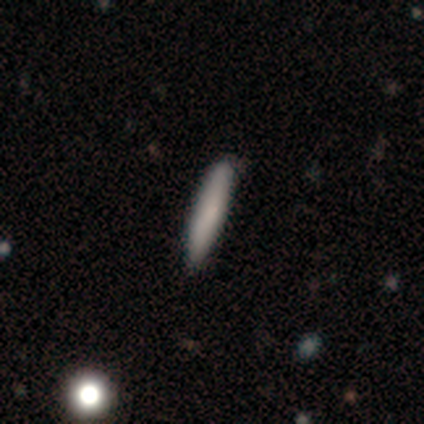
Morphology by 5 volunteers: Volunteers were most divided on "how rounded": cigar-shaped: 75%, in between: 25%, round: 0%. More confident: merging — none (100%); smooth or featured — smooth (80%).